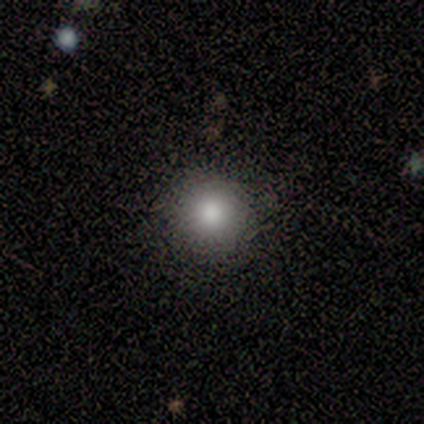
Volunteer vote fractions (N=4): smooth_or_featured: smooth (p=1.00)
how_rounded: round (p=1.00)
merging: none (p=1.00)